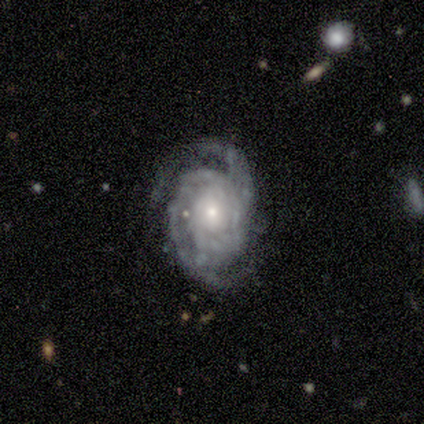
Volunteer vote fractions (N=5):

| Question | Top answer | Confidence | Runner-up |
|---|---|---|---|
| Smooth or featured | featured or disk | 80% | star or artifact (20%) |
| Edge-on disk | no | 100% | — |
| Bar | no | 75% | weak (25%) |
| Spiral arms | yes | 100% | — |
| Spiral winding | tight | 75% | medium (25%) |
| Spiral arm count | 2 | 100% | — |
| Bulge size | moderate | 75% | small (25%) |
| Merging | none | 100% | — |